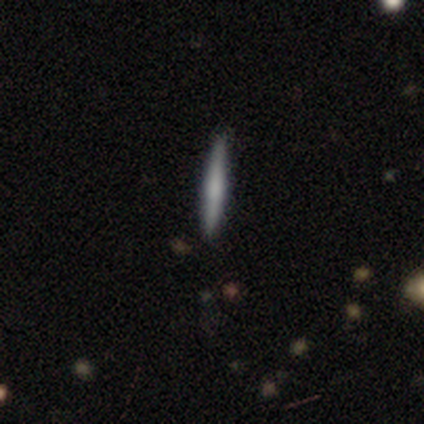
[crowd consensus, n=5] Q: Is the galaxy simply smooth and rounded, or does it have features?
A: smooth — 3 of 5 (60%).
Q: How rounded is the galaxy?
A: cigar-shaped — 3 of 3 (100%).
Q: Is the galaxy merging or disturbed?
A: none — 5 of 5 (100%).